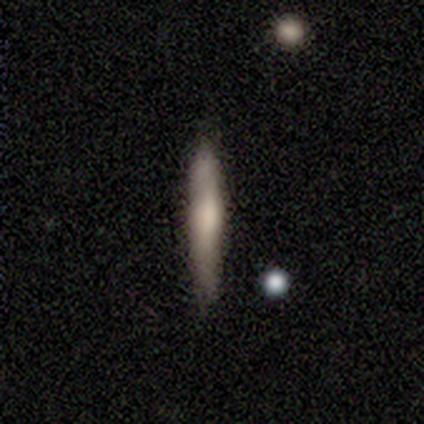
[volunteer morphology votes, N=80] Smooth or featured: smooth — 55% (featured or disk — 40%)
How rounded: cigar-shaped — 91% (in between — 9%)
Merging: none — 37% (minor disturbance — 13%)